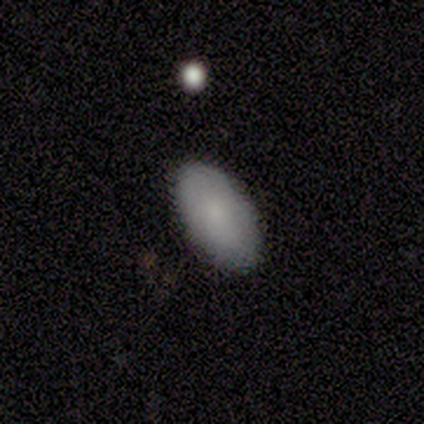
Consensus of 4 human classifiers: Morphology: type=smooth (75%); roundness=in between (100%); merging=none (100%).